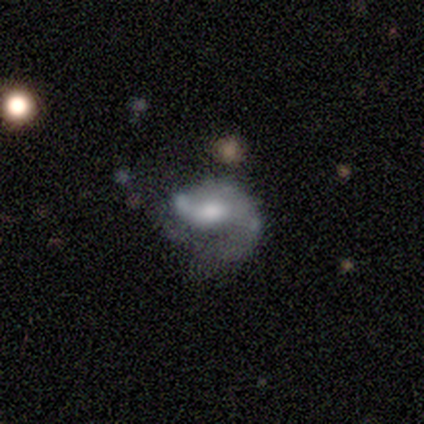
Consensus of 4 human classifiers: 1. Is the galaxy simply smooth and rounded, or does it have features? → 100% featured or disk, 0% smooth, 0% star or artifact.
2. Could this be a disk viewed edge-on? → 100% no, 0% yes.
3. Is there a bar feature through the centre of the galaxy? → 75% weak, 25% no, 0% strong.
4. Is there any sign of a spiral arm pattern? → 100% yes, 0% no.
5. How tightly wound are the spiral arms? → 50% loose, 25% tight, 25% medium.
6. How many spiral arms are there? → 75% 1, 25% 2, 0% 3, 0% 4, 0% more than 4, 0% can't tell.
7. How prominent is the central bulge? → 75% moderate, 25% large, 0% dominant, 0% small, 0% none.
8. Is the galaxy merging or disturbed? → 75% major disturbance, 25% merger, 0% none, 0% minor disturbance.